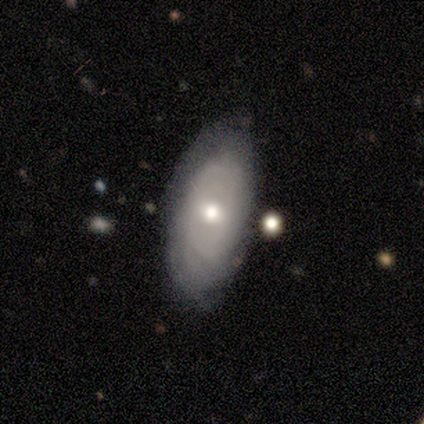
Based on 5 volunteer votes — Overall: featured or disk (60%; smooth 40%). Edge-on disk: no (67%; yes 33%). Bar: no (100%). Spiral arms: yes (50%, tied with no). Spiral arm count: 3 (100%). Spiral winding: tight (100%). Bulge size: moderate (100%). Merging: none (60%; minor disturbance 40%).